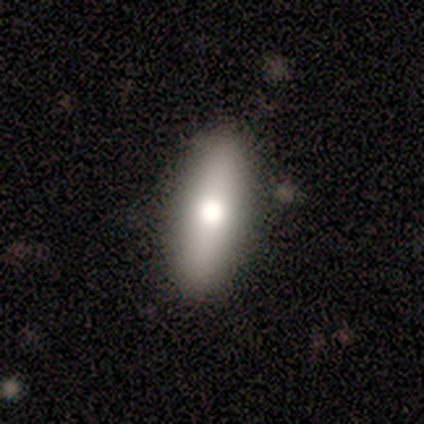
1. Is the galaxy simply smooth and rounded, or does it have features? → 80% featured or disk, 20% smooth, 0% star or artifact.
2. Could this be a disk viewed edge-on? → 75% yes, 25% no.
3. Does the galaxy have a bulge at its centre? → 100% rounded, 0% boxy, 0% none.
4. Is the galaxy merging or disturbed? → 100% none, 0% minor disturbance, 0% major disturbance, 0% merger.